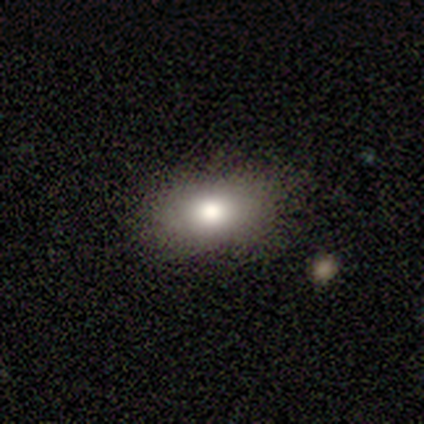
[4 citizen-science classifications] smooth-or-featured: featured or disk: 75% | smooth: 25% | star or artifact: 0%
  disk-edge-on: no: 67% | yes: 33%
    bar: no: 100% | strong: 0% | weak: 0%
    has-spiral-arms: no: 100% | yes: 0%
    bulge-size: large: 100% | dominant: 0% | moderate: 0% | small: 0% | none: 0%
  merging: none: 75% | minor disturbance: 25% | major disturbance: 0% | merger: 0%